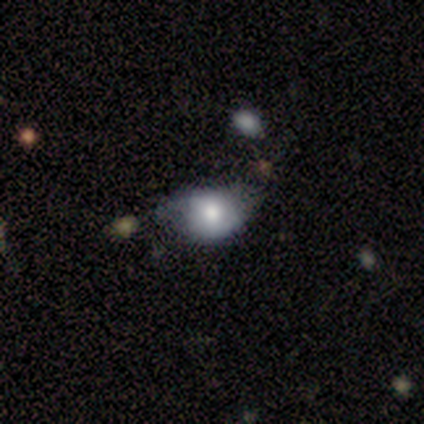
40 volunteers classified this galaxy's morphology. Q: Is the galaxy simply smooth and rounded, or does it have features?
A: smooth — 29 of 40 (72%).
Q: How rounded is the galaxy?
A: in between — 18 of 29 (62%).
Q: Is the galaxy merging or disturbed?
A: minor disturbance — 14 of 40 (35%).